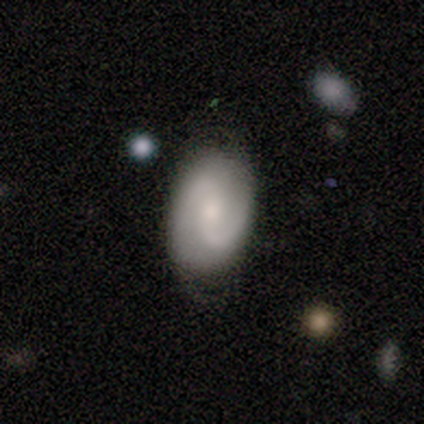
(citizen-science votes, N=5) Morphology: type=smooth (60%); roundness=in between (67%); merging=none (75%).